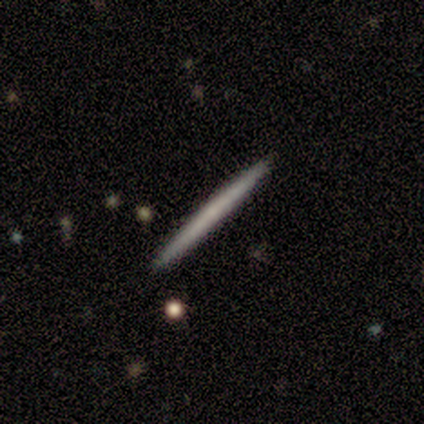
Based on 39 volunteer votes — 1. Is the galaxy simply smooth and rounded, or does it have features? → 54% smooth, 41% featured or disk, 5% star or artifact.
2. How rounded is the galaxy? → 100% cigar-shaped, 0% round, 0% in between.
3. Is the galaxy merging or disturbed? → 92% none, 5% minor disturbance, 3% major disturbance, 0% merger.